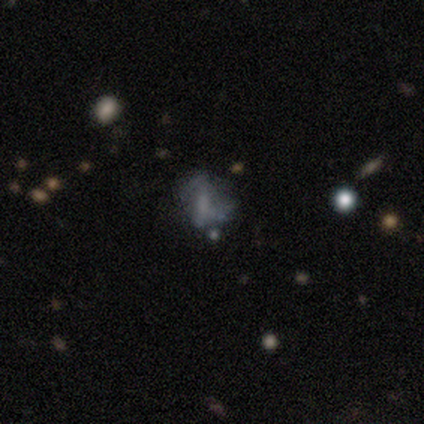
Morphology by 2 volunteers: smooth-or-featured: featured or disk: 100% | smooth: 0% | star or artifact: 0%
  disk-edge-on: no: 100% | yes: 0%
    bar: no: 100% | strong: 0% | weak: 0%
    has-spiral-arms: no: 100% | yes: 0%
    bulge-size: none: 100% | dominant: 0% | large: 0% | moderate: 0% | small: 0%
  merging: none: 50% (tied) | minor disturbance: 50% (tied) | major disturbance: 0% | merger: 0%